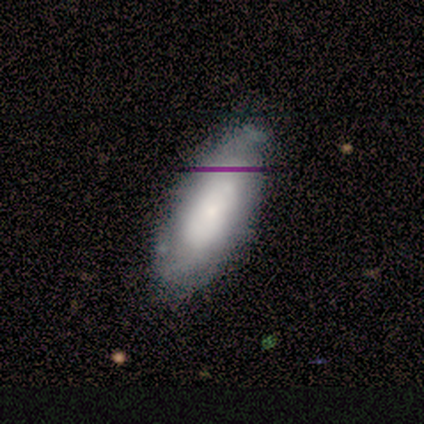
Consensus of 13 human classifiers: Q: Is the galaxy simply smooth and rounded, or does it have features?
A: smooth — 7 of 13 (54%).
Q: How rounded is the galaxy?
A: in between — 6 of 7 (86%).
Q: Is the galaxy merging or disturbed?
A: minor disturbance — 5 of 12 (42%).